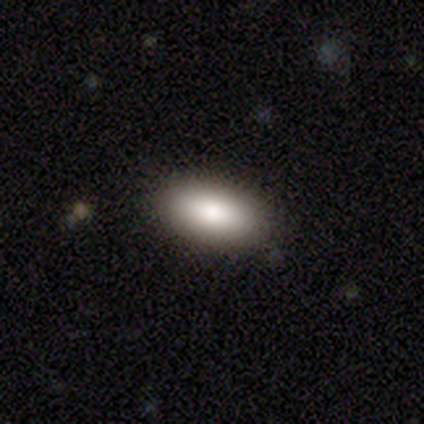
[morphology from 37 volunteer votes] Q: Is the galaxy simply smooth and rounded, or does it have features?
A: smooth — 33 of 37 (89%).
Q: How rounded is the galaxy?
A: in between — 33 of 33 (100%).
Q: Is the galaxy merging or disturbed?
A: none — 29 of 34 (85%).